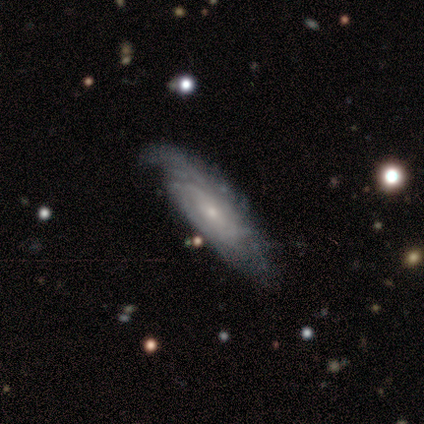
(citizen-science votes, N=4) Morphology: type=featured or disk (100%); edge-on=no (100%); bar=no (75%); spiral arms=yes (100%); winding=tight (50%, tied with loose); arm count=3 (50%); bulge=small (75%); merging=none (100%).